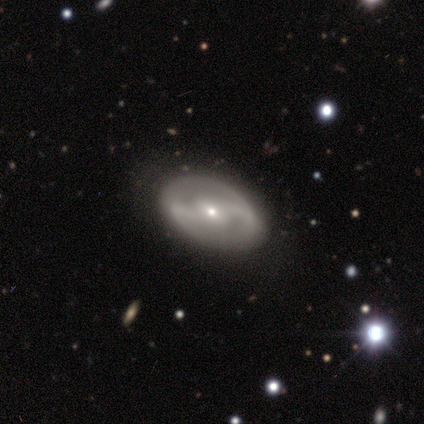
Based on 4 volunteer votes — smooth-or-featured: featured or disk: 100% | smooth: 0% | star or artifact: 0%
  disk-edge-on: no: 75% | yes: 25%
    bar: no: 67% | weak: 33% | strong: 0%
    has-spiral-arms: yes: 67% | no: 33%
      spiral-winding: tight: 50% (tied) | loose: 50% (tied) | medium: 0%
      spiral-arm-count: 2: 100% | 1: 0% | 3: 0% | 4: 0% | more than 4: 0% | can't tell: 0%
    bulge-size: small: 100% | dominant: 0% | large: 0% | moderate: 0% | none: 0%
  merging: none: 100% | minor disturbance: 0% | major disturbance: 0% | merger: 0%